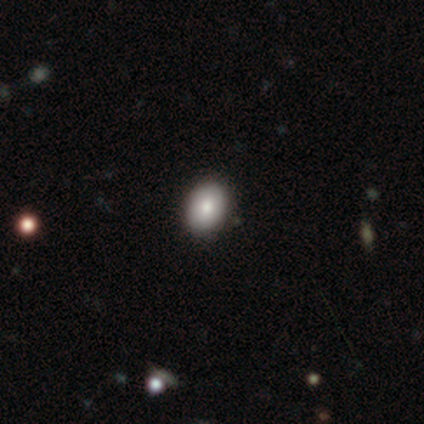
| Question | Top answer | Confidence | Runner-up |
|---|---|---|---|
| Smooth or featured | smooth | 100% | — |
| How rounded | in between | 80% | round (20%) |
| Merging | none | 80% | minor disturbance (20%) |